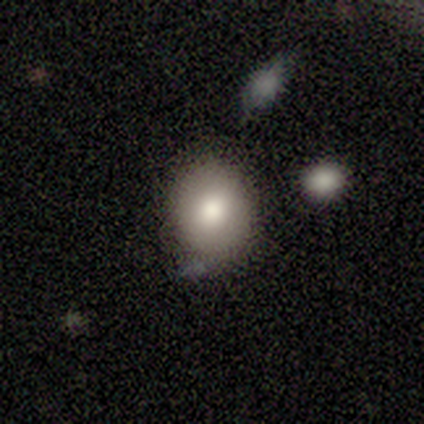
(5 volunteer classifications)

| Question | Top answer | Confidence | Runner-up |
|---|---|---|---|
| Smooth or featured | featured or disk | 60% | smooth (40%) |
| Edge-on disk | no | 100% | — |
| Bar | no | 67% | weak (33%) |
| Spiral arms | no | 100% | — |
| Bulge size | moderate | 67% | large (33%) |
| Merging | none | 60% | minor disturbance (40%) |